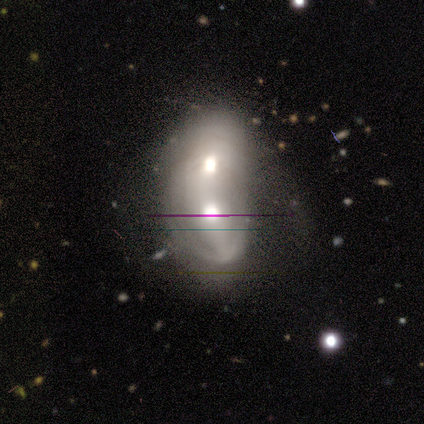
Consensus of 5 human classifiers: Smooth or featured? 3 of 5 (60%) said featured or disk. Edge-on disk? 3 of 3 (100%) said no. Bar? 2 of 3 (67%) said no. Spiral arms? 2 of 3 (67%) said no. Bulge size? 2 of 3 (67%) said small. Merging? 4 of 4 (100%) said merger.